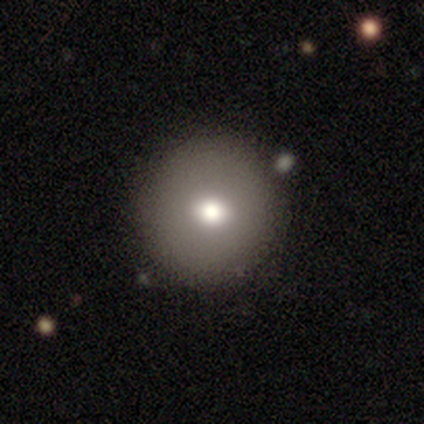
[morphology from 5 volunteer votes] Overall: smooth (60%; featured or disk 20%). How rounded: round (100%). Merging: none (75%).